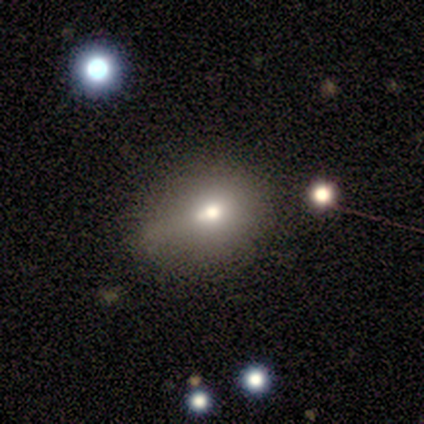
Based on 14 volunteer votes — A smooth galaxy with no disk features (57%) that is in between round and cigar-shaped (88%).

Vote fractions:
- Smooth or featured? smooth: 57% / featured or disk: 21% / star or artifact: 21%
- How rounded? in between: 88% / round: 12% / cigar-shaped: 0%
- Merging? none: 45% / minor disturbance: 36% / major disturbance: 9% / merger: 9%